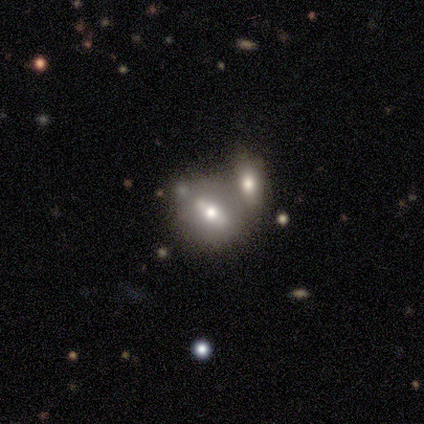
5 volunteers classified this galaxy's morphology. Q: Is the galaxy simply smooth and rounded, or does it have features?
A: smooth — 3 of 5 (60%).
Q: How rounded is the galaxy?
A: round — 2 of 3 (67%).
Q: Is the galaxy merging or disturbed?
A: merger — 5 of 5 (100%).